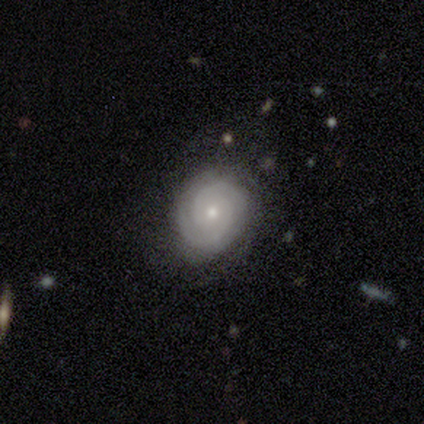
Overall: featured or disk (71%). Edge-on disk: no (100%). Bar: no (59%; weak 41%). Spiral arms: yes (96%). Spiral arm count: 2 (73%). Spiral winding: tight (81%). Bulge size: small (74%). Merging: none (69%).